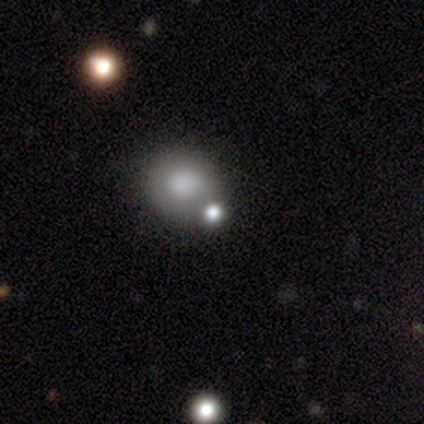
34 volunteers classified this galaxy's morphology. smooth 82%, star or artifact 12%, featured or disk 6%. Down the decision tree: how rounded — round (79%); merging — merger (63%).